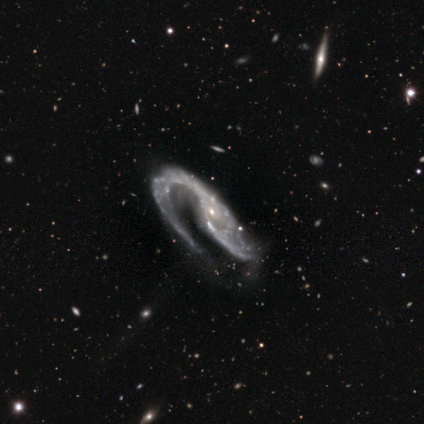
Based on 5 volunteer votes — Smooth or featured? 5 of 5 (100%) said featured or disk. Edge-on disk? 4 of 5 (80%) said no. Bar? 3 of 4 (75%) said no. Spiral arms? 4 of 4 (100%) said yes. Spiral winding? 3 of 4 (75%) said medium. Spiral arm count? 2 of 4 (50%) said 1. Bulge size? 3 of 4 (75%) said small. Merging? 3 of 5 (60%) said minor disturbance.